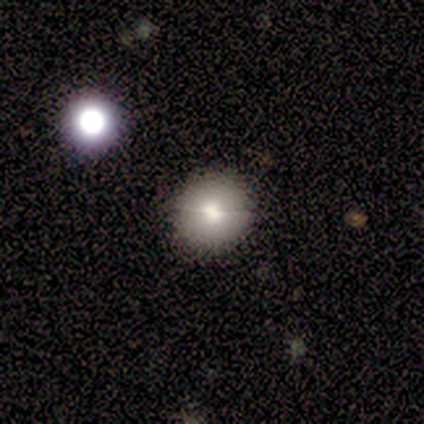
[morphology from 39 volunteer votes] Volunteers were most divided on "smooth or featured": smooth: 69%, featured or disk: 21%, star or artifact: 10%. More confident: how rounded — round (89%); merging — none (86%).